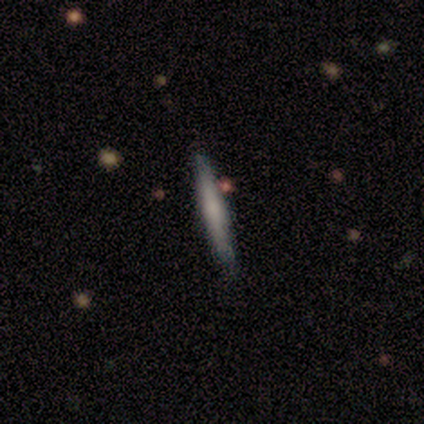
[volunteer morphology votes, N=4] This is clearly a smooth galaxy (100%). How rounded: clearly cigar-shaped (100%). Merging: likely none (75%).